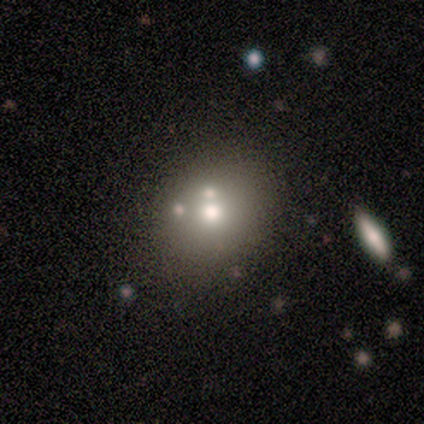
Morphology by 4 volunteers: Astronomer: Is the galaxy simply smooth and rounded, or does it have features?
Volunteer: featured or disk — 50%.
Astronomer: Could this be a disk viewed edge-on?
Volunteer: no — 100%.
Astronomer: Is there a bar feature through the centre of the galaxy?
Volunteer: no — 100%.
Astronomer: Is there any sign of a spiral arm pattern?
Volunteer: no — 100%.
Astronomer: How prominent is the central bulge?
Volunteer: moderate — 50%, tied with small at 50%.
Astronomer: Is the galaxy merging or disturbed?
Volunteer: none — 100%.